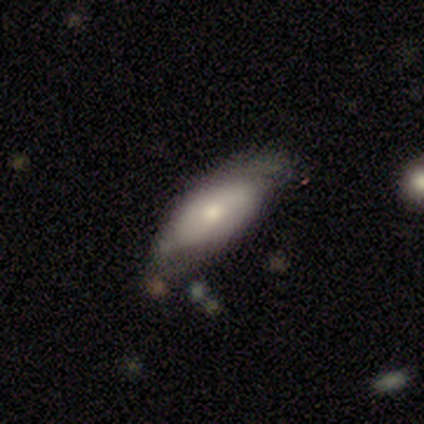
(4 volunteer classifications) A smooth galaxy with no disk features (50%, tied with featured or disk) that is cigar-shaped (100%).

Vote fractions:
- Smooth or featured? smooth: 50% (tied) / featured or disk: 50% (tied) / star or artifact: 0%
- How rounded? cigar-shaped: 100% / round: 0% / in between: 0%
- Merging? none: 75% / minor disturbance: 25% / major disturbance: 0% / merger: 0%